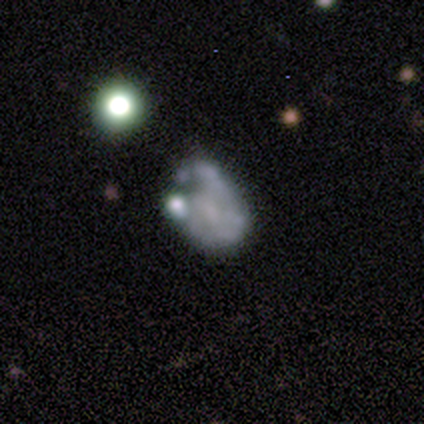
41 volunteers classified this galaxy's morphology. A featured or disk galaxy (71%) with no bar (68%), no spiral arms (61%) and no central bulge (50%).

Vote fractions:
- Smooth or featured? featured or disk: 71% / smooth: 22% / star or artifact: 7%
- Edge-on disk? no: 97% / yes: 3%
- Bar? no: 68% / weak: 29% / strong: 4%
- Spiral arms? no: 61% / yes: 39%
- Bulge size? none: 50% / moderate: 25% / small: 25% / dominant: 0% / large: 0%
- Merging? minor disturbance: 34% / major disturbance: 32% / merger: 21% / none: 13%